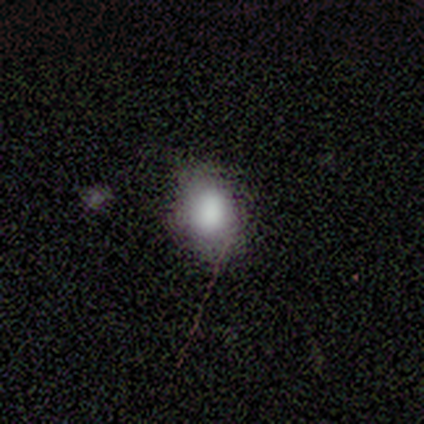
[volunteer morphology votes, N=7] Overall: smooth (86%). How rounded: in between (67%; round 33%). Merging: none (67%).